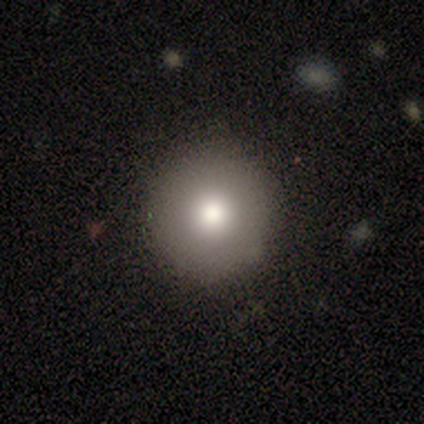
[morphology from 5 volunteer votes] Smooth or featured: smooth — 60% (featured or disk — 20%)
How rounded: round — 100%
Merging: none — 50% (tied with minor disturbance — 50%)